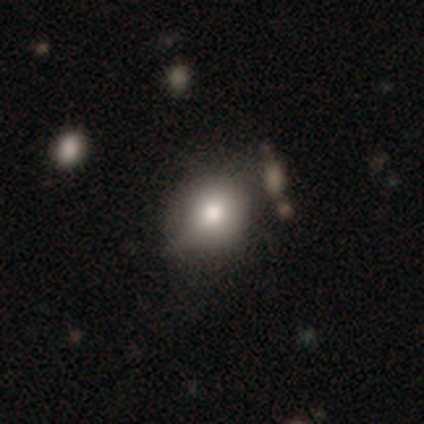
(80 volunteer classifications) A smooth galaxy with no disk features (88%) that is round (71%). Merging: none (29%).